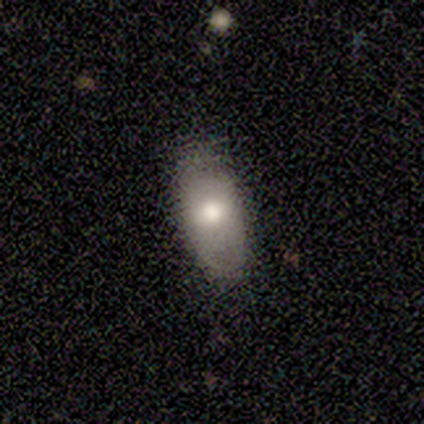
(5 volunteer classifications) smooth 100%, featured or disk 0%, star or artifact 0%. Down the decision tree: how rounded — in between (100%); merging — none (80%).